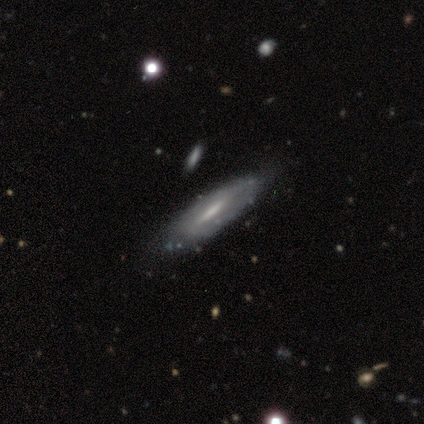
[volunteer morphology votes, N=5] Volunteers were most divided on "merging" (2-way tie): none: 50%, minor disturbance: 50%, major disturbance: 0%, merger: 0%. More confident: smooth or featured — featured or disk (80%); edge-on disk — yes (75%); edge-on bulge — none (67%).